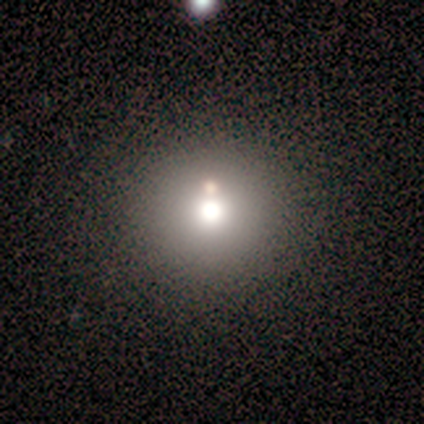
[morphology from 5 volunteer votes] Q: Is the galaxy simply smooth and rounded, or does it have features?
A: smooth — 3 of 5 (60%).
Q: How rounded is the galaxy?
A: round — 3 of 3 (100%).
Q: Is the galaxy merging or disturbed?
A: none — 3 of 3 (100%).